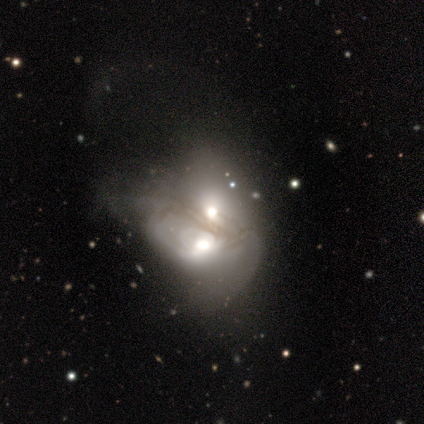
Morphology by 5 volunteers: A smooth galaxy with no disk features (60%) that is round (67%). Merging: merger (80%).